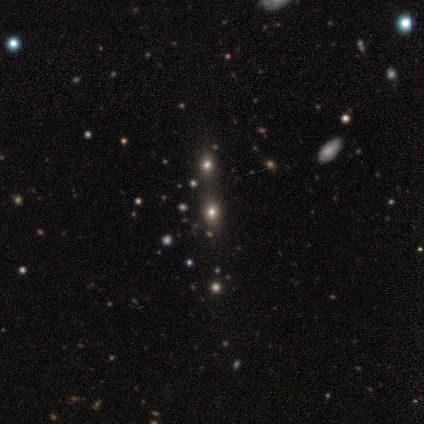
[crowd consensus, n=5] smooth_or_featured: smooth (p=0.40) [tied with: star or artifact p=0.40]
how_rounded: round (p=0.50) [tied with: in between p=0.50]
merging: none (p=0.67) [alt: merger p=0.33]